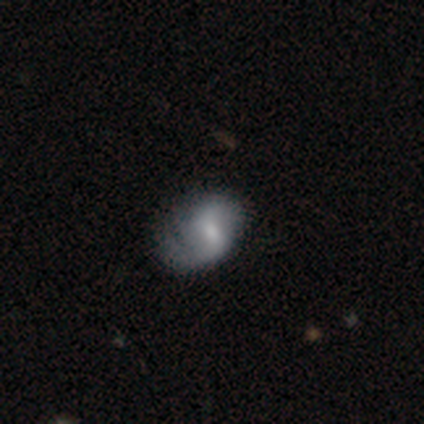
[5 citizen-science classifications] smooth-or-featured: smooth: 60% | featured or disk: 40% | star or artifact: 0%
  how-rounded: in between: 67% | round: 33% | cigar-shaped: 0%
  merging: minor disturbance: 40% (tied) | major disturbance: 40% (tied) | none: 20% | merger: 0%